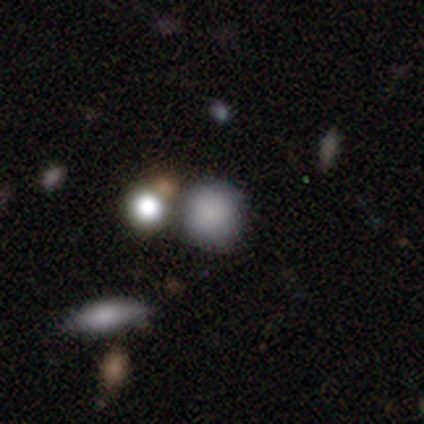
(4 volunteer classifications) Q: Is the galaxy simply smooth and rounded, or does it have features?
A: smooth — 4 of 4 (100%).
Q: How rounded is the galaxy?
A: round — 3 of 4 (75%).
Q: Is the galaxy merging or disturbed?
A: none — 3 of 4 (75%).